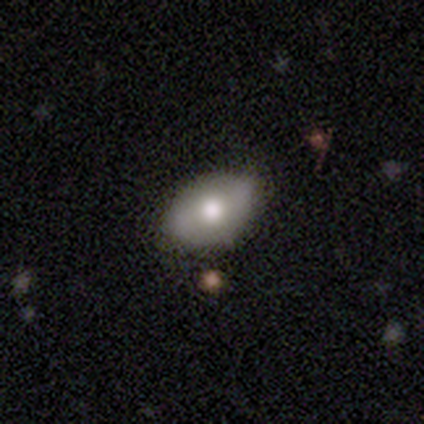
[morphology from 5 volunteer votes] Smooth or featured? 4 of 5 (80%) said smooth. How rounded? 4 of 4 (100%) said in between. Merging? 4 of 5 (80%) said none.